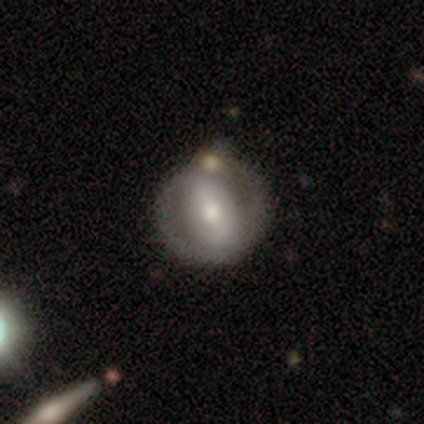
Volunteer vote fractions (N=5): Q: Smooth or featured?
A: smooth (60%); runner-up: featured or disk (40%)
Q: How rounded?
A: round (100%)
Q: Merging?
A: none (80%); runner-up: merger (20%)